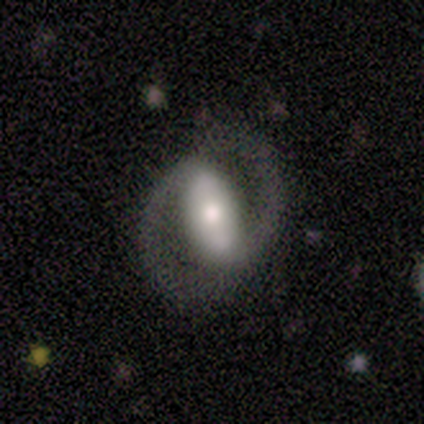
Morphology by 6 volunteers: This is clearly a featured or disk galaxy (100%). It is clearly not viewed edge-on (100%). Bar: likely strong (67%). Spiral arm pattern: clearly yes (100%). Spiral arm count: clearly 2 (83%). Spiral winding: likely loose (67%). Central bulge: possibly moderate (50%). Merging: likely none (67%).